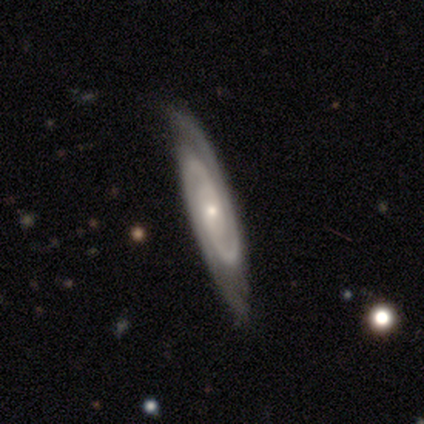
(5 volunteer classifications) A featured or disk galaxy (100%) with no bar (75%), 2 (100%) tight (75%) spiral arms (100%) and a small central bulge (100%).

Vote fractions:
- Smooth or featured? featured or disk: 100% / smooth: 0% / star or artifact: 0%
- Edge-on disk? no: 80% / yes: 20%
- Bar? no: 75% / weak: 25% / strong: 0%
- Spiral arms? yes: 100% / no: 0%
- Spiral winding? tight: 75% / loose: 25% / medium: 0%
- Spiral arm count? 2: 100% / 1: 0% / 3: 0% / 4: 0% / more than 4: 0% / can't tell: 0%
- Bulge size? small: 100% / dominant: 0% / large: 0% / moderate: 0% / none: 0%
- Merging? none: 100% / minor disturbance: 0% / major disturbance: 0% / merger: 0%